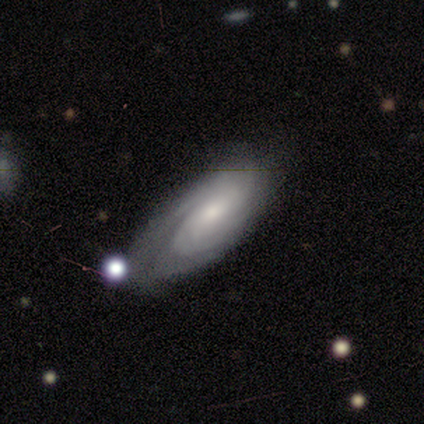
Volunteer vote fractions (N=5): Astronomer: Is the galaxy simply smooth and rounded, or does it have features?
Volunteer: featured or disk — 100%.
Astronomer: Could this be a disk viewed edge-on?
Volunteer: no — 100%.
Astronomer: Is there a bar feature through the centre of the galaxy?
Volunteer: no — 60% (runner-up: weak, 40%).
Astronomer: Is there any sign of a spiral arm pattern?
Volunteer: yes — 80%.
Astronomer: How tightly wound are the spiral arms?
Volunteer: tight — 100%.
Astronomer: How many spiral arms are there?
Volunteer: can't tell — 50%.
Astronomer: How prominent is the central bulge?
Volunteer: small — 60% (runner-up: moderate, 40%).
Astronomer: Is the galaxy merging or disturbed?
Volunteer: minor disturbance — 80%.